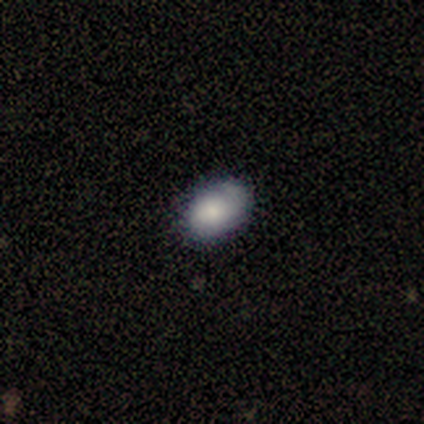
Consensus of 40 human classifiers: Volunteers were most divided on "merging": none: 37%, minor disturbance: 26%, merger: 11%, major disturbance: 3%. More confident: how rounded — in between (72%); smooth or featured — smooth (62%).